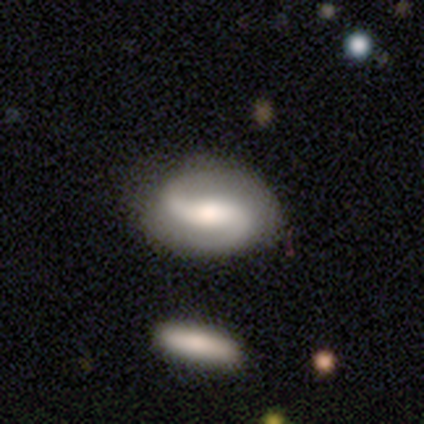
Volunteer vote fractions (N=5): Smooth or featured? 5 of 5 (100%) said featured or disk. Edge-on disk? 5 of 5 (100%) said no. Bar? 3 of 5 (60%) said strong. Spiral arms? 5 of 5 (100%) said yes. Spiral winding? 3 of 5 (60%) said medium. Spiral arm count? 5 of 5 (100%) said 2. Bulge size? 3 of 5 (60%) said large. Merging? 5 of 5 (100%) said none.